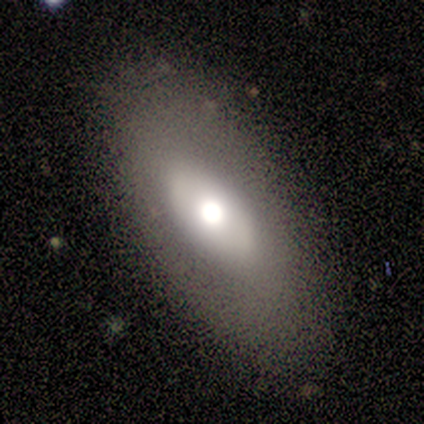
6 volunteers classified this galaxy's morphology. Smooth or featured? smooth (67%)
How rounded? in between (100%)
Merging? none (100%)